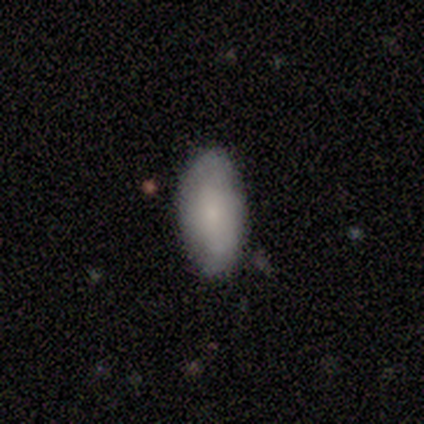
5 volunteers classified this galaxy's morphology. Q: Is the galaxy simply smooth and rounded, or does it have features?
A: smooth — 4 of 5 (80%).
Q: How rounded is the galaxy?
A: in between — 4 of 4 (100%).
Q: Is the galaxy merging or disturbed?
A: none — 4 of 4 (100%).